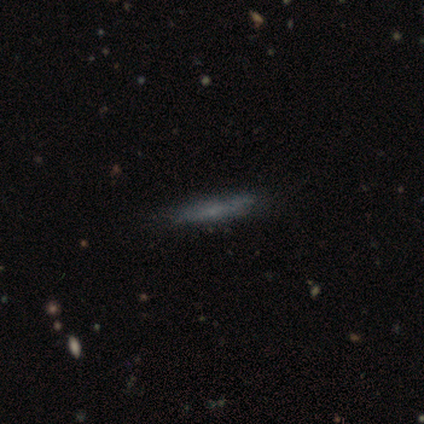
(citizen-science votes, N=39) Smooth or featured?
  - smooth: 56% *
  - featured or disk: 38%
  - star or artifact: 5%
How rounded?
  - cigar-shaped: 77% *
  - in between: 23%
  - round: 0%
Merging?
  - none: 84% *
  - minor disturbance: 11%
  - major disturbance: 5%
  - merger: 0%